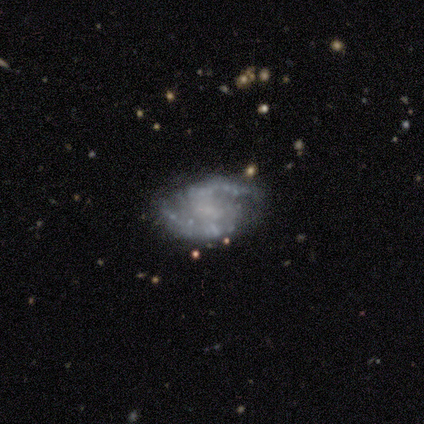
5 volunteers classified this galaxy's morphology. smooth_or_featured: featured or disk (p=0.80) [alt: star or artifact p=0.20]
disk_edge_on: no (p=1.00)
bar: weak (p=0.50) [alt: strong p=0.25]
has_spiral_arms: yes (p=1.00)
spiral_winding: medium (p=0.50) [tied with: loose p=0.50]
spiral_arm_count: 2 (p=1.00)
bulge_size: none (p=0.50) [alt: moderate p=0.25]
merging: none (p=0.75) [alt: minor disturbance p=0.25]